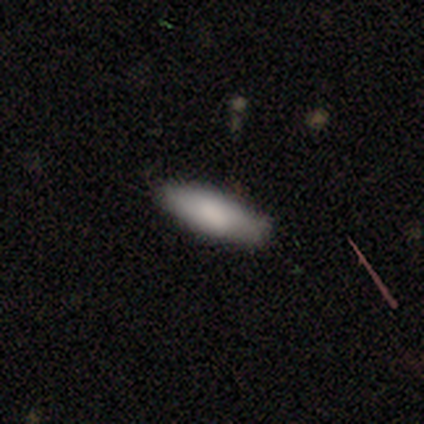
This appears to be a smooth galaxy with no disk features (67%) that is in between round and cigar-shaped (83%). Merging: none (86%).